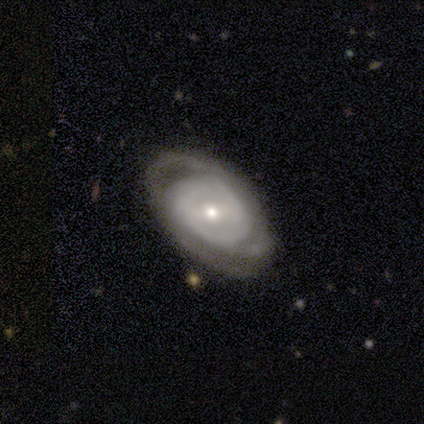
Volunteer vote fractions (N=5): This is likely a featured or disk galaxy (60%). It is clearly not viewed edge-on (100%). Bar: marginally strong (33%, tied with weak and no). Spiral arm pattern: clearly yes (100%). Spiral arm count: marginally 2 (33%, tied with more than 4 and can't tell). Spiral winding: clearly tight (100%). Central bulge: likely moderate (67%). Merging: likely none (60%).